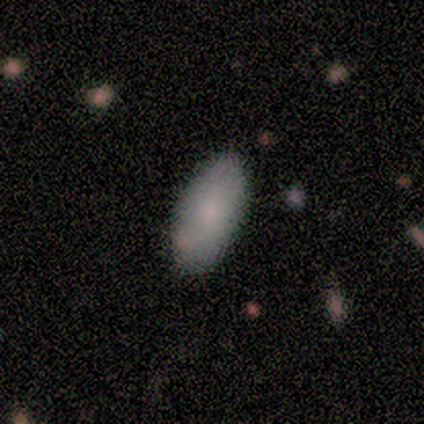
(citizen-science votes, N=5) Overall: smooth (60%; featured or disk 40%). How rounded: in between (100%). Merging: none (100%).